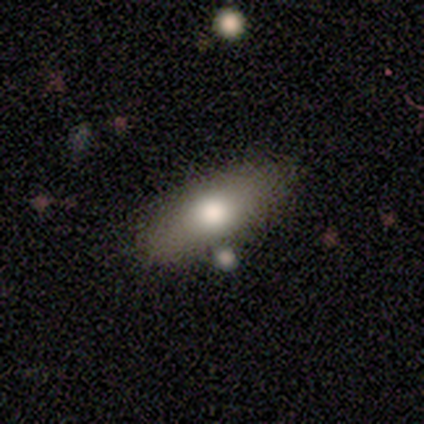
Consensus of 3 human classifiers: Morphology: type=smooth (100%); roundness=in between (67%); merging=none (67%).